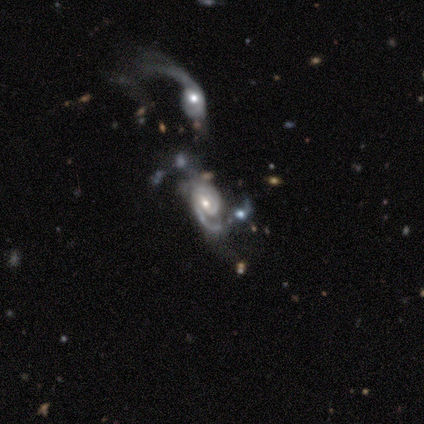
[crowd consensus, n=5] Smooth or featured: featured or disk — 100%
Edge-on disk: no — 100%
Bar: no — 60% (weak — 40%)
Spiral arms: yes — 80% (no — 20%)
Spiral winding: medium — 75% (tight — 25%)
Spiral arm count: can't tell — 50% (1 — 25%)
Bulge size: small — 80% (moderate — 20%)
Merging: none — 40% (tied with merger — 40%)